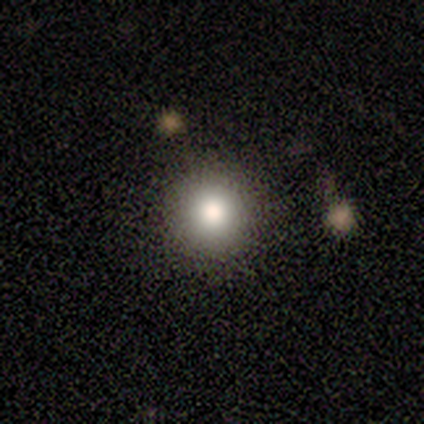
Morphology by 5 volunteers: smooth 80%, featured or disk 20%, star or artifact 0%. Down the decision tree: how rounded — round (100%); merging — none (80%).